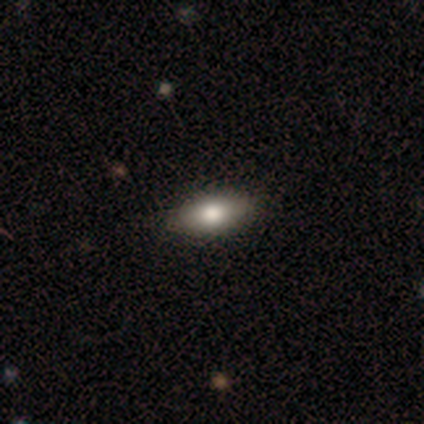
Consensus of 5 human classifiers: Overall: smooth (60%; featured or disk 20%). How rounded: in between (67%; cigar-shaped 33%). Merging: none (100%).